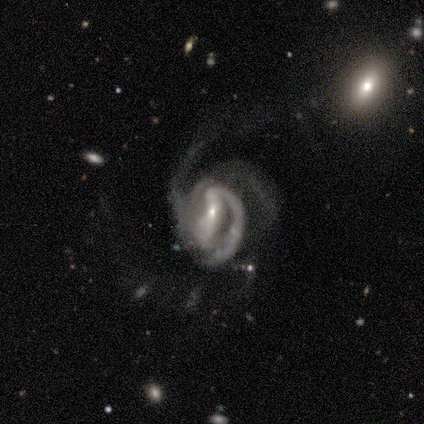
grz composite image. It shows a featured or disk galaxy (80%) with a weak bar (50%), 2 (50%) medium (100%) spiral arms (100%) and a small central bulge (100%). Merging: none (50%, tied with major disturbance).